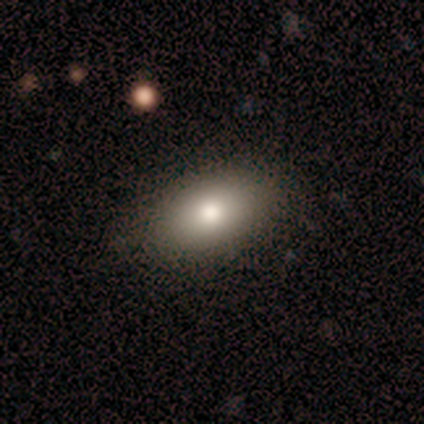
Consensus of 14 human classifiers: Smooth or featured?
  - smooth: 43% *
  - star or artifact: 36%
  - featured or disk: 21%
How rounded?
  - in between: 83% *
  - cigar-shaped: 17%
  - round: 0%
Merging?
  - none: 78% *
  - minor disturbance: 22%
  - major disturbance: 0%
  - merger: 0%